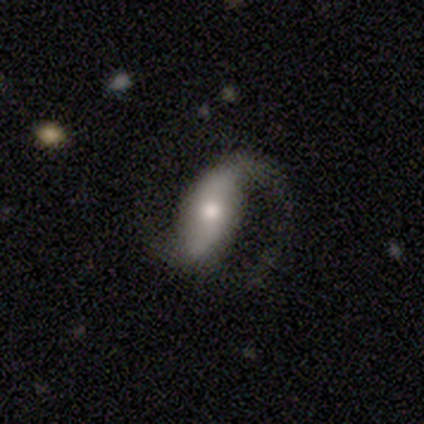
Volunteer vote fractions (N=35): A featured or disk galaxy (80%) with a weak bar (36%, tied with no), 2 (92%) loose (60%) spiral arms (100%) and a moderate central bulge (68%).

Vote fractions:
- Smooth or featured? featured or disk: 80% / smooth: 14% / star or artifact: 6%
- Edge-on disk? no: 89% / yes: 11%
- Bar? weak: 36% (tied) / no: 36% (tied) / strong: 28%
- Spiral arms? yes: 100% / no: 0%
- Spiral winding? loose: 60% / medium: 40% / tight: 0%
- Spiral arm count? 2: 92% / 1: 8% / 3: 0% / 4: 0% / more than 4: 0% / can't tell: 0%
- Bulge size? moderate: 68% / small: 20% / none: 8% / large: 4% / dominant: 0%
- Merging? none: 67% / major disturbance: 24% / minor disturbance: 6% / merger: 3%